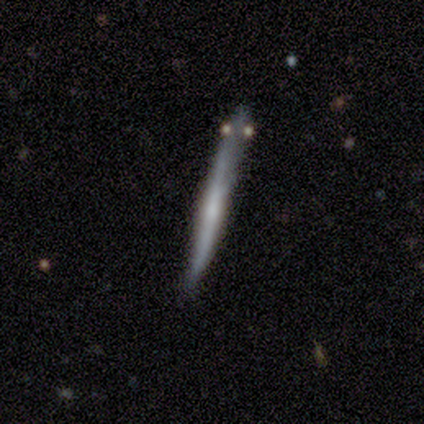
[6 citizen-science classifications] This is possibly a smooth galaxy (50%, tied with featured or disk). How rounded: clearly cigar-shaped (100%). Merging: likely none (67%).